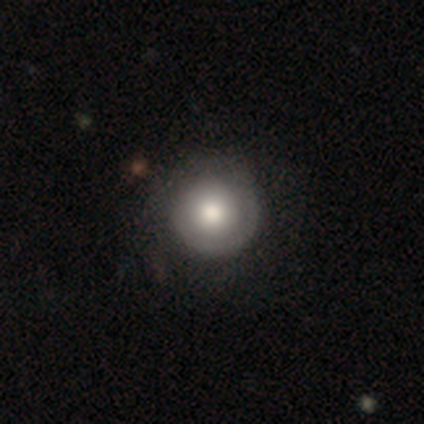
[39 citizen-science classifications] Overall: featured or disk (56%; smooth 38%). Edge-on disk: no (95%). Bar: no (100%). Spiral arms: no (52%; yes 48%). Bulge size: moderate (52%; large 48%). Merging: none (59%).